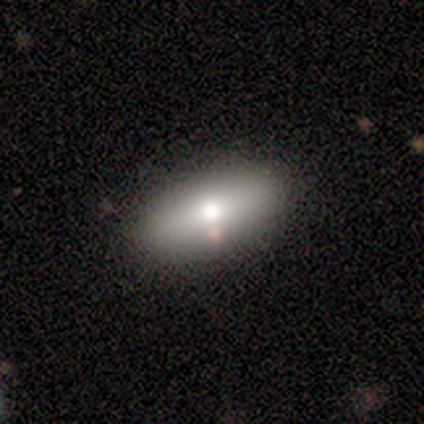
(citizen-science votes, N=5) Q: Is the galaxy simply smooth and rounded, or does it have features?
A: smooth — 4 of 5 (80%).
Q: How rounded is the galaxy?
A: in between — 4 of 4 (100%).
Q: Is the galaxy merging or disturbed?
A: none — 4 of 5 (80%).